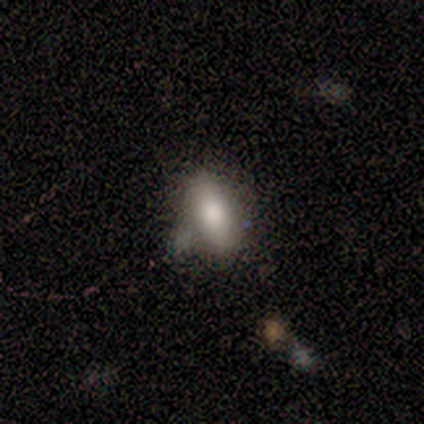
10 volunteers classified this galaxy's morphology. Volunteers were most divided on "merging": none: 62%, minor disturbance: 25%, merger: 12%, major disturbance: 0%. More confident: how rounded — in between (83%); smooth or featured — smooth (60%).